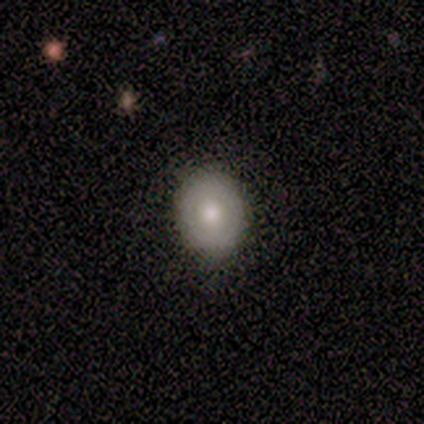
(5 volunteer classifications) Smooth or featured? smooth (100%)
How rounded? round (80%)
Merging? none (80%)